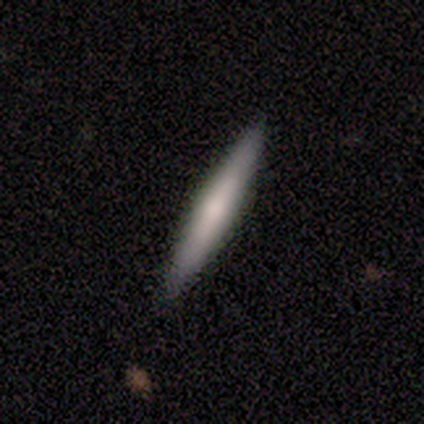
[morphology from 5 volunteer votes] Q: Smooth or featured?
A: smooth (80%); runner-up: featured or disk (20%)
Q: How rounded?
A: cigar-shaped (100%)
Q: Merging?
A: none (80%); runner-up: minor disturbance (20%)